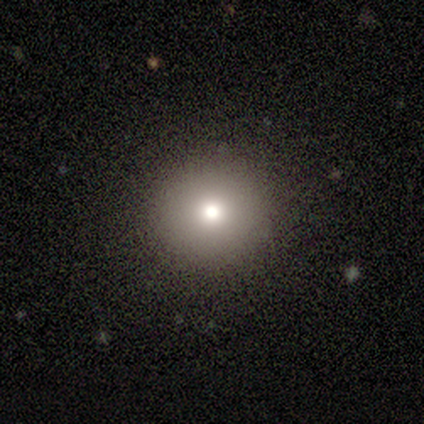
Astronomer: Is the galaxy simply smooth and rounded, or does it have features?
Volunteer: smooth — 100%.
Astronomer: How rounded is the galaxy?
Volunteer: round — 100%.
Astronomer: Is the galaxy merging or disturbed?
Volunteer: none — 100%.